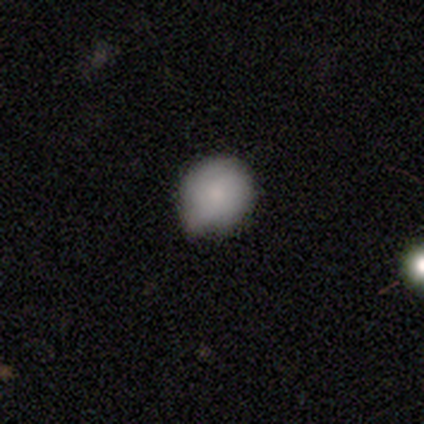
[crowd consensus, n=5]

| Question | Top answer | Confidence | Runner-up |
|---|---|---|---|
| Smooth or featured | smooth | 80% | featured or disk (20%) |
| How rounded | round | 75% | in between (25%) |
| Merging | minor disturbance | 60% | none (40%) |